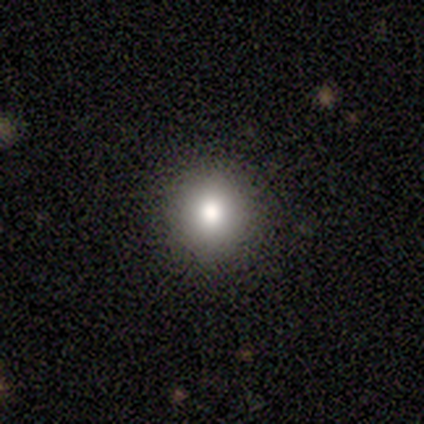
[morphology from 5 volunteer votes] This is clearly a smooth galaxy (80%). How rounded: clearly round (100%). Merging: clearly none (100%).